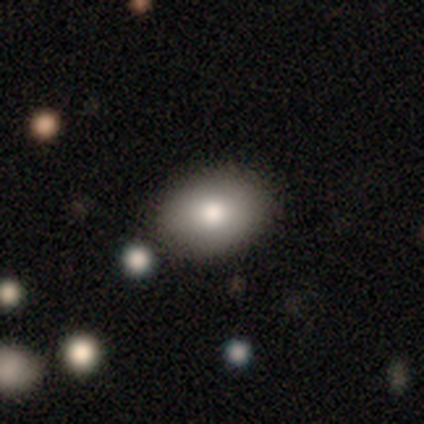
A smooth galaxy with no disk features (100%) that is in between round and cigar-shaped (100%). Merging: none (100%).